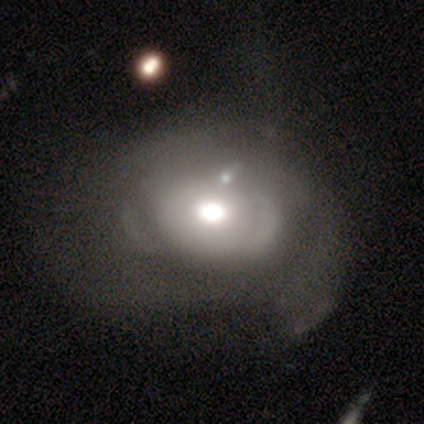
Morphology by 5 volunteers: type=smooth (80%); roundness=in between (75%); merging=none (60%).